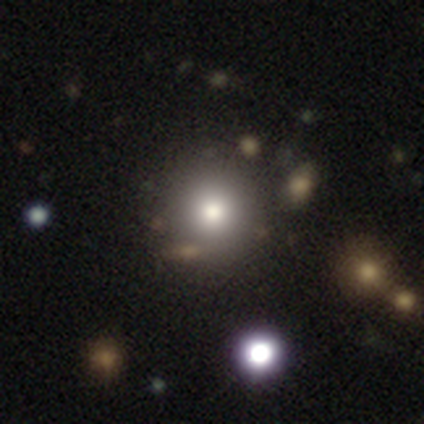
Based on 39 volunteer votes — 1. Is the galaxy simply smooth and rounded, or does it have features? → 62% smooth, 21% featured or disk, 18% star or artifact.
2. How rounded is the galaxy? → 96% round, 4% in between, 0% cigar-shaped.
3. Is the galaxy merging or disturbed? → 31% none, 19% merger, 6% minor disturbance, 0% major disturbance.